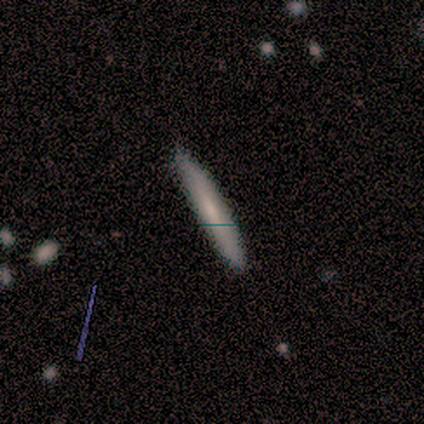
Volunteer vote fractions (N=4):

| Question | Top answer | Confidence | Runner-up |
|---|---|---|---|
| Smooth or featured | smooth | 75% | star or artifact (25%) |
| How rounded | cigar-shaped | 100% | — |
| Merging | none | 100% | — |